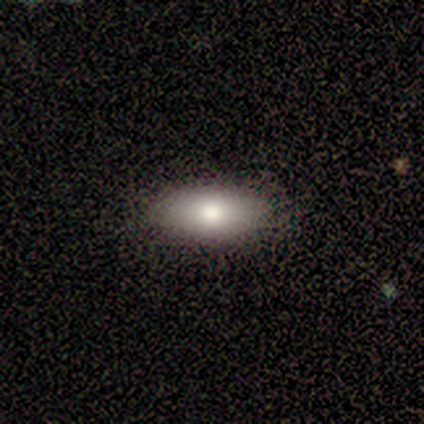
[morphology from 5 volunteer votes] smooth-or-featured: smooth: 100% | featured or disk: 0% | star or artifact: 0%
  how-rounded: in between: 80% | round: 20% | cigar-shaped: 0%
  merging: none: 100% | minor disturbance: 0% | major disturbance: 0% | merger: 0%